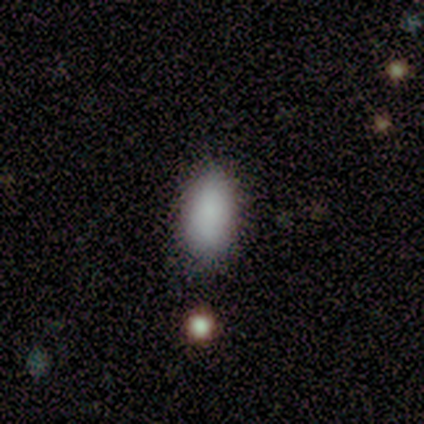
Smooth or featured? 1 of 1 (100%) said smooth. How rounded? 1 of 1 (100%) said in between. Merging? 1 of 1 (100%) said none.